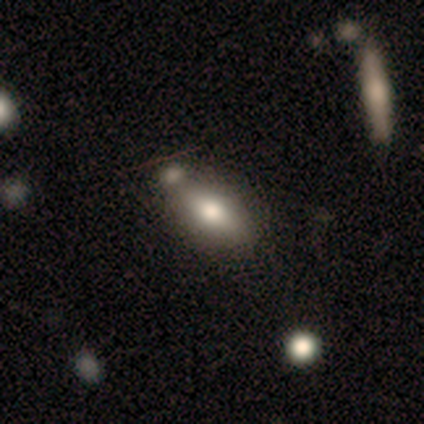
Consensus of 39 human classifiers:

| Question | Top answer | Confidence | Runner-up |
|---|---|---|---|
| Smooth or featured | smooth | 67% | featured or disk (26%) |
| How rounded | in between | 88% | cigar-shaped (12%) |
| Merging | merger | 44% | none (36%) |